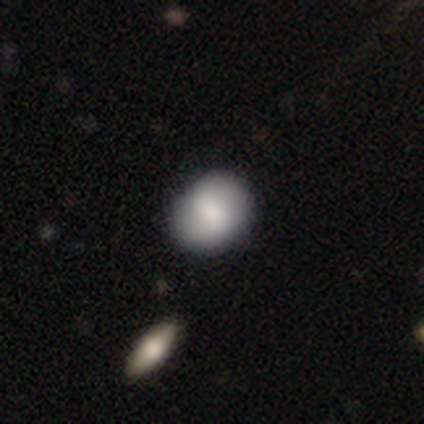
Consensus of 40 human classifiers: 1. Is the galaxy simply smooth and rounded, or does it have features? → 78% smooth, 20% featured or disk, 2% star or artifact.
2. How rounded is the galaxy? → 58% round, 42% in between, 0% cigar-shaped.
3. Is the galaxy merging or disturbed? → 69% none, 8% merger, 5% minor disturbance, 5% major disturbance.